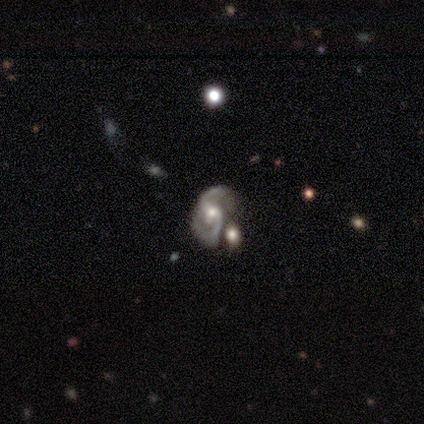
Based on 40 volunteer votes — Smooth or featured: featured or disk — 88% (star or artifact — 8%)
Edge-on disk: no — 97% (yes — 3%)
Bar: no — 50% (weak — 41%)
Spiral arms: yes — 100%
Spiral winding: medium — 50% (loose — 29%)
Spiral arm count: 2 — 94% (1 — 3%)
Bulge size: moderate — 50% (small — 44%)
Merging: none — 43% (minor disturbance — 32%)